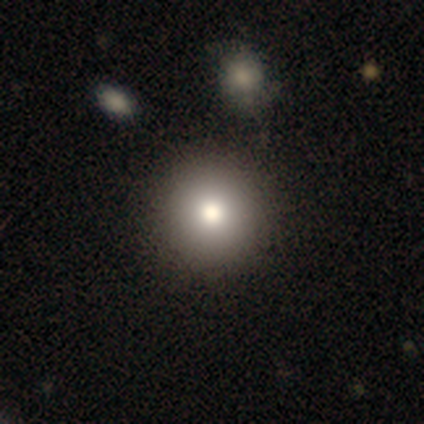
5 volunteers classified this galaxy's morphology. Q: Smooth or featured?
A: smooth (80%); runner-up: star or artifact (20%)
Q: How rounded?
A: round (75%); runner-up: in between (25%)
Q: Merging?
A: none (75%); runner-up: minor disturbance (25%)